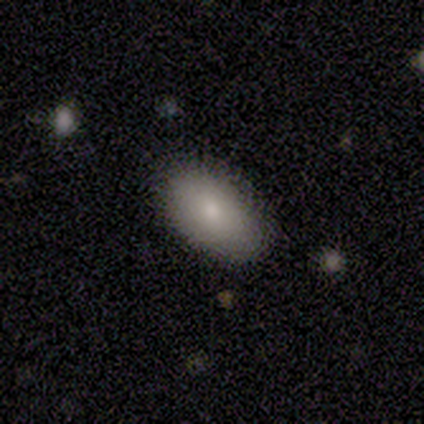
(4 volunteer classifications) Volunteers were most divided on "smooth or featured": smooth: 75%, star or artifact: 25%, featured or disk: 0%. More confident: how rounded — in between (100%); merging — none (100%).